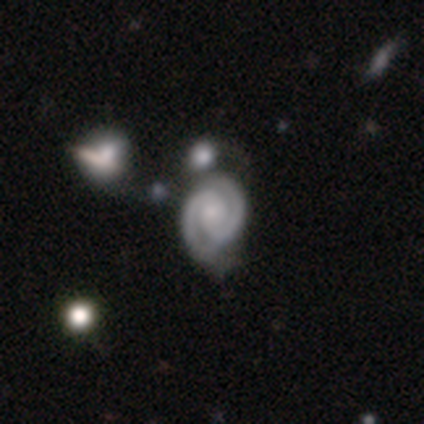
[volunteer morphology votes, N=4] This appears to be a featured or disk galaxy (100%) with no bar (75%), 2 (100%) tight (75%) spiral arms (100%) and a moderate central bulge (50%). Merging: none (100%).